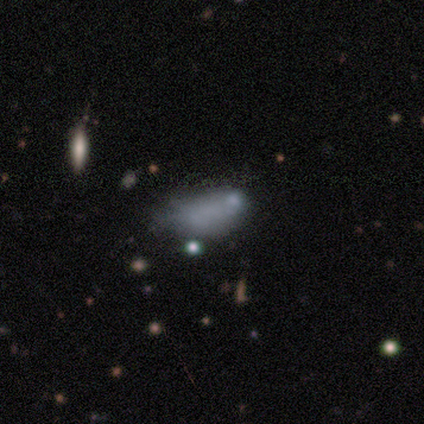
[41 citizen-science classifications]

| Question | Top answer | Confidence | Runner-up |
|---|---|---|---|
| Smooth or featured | smooth | 46% | featured or disk (39%) |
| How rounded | in between | 89% | cigar-shaped (11%) |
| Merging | minor disturbance | 34% | major disturbance (31%) |